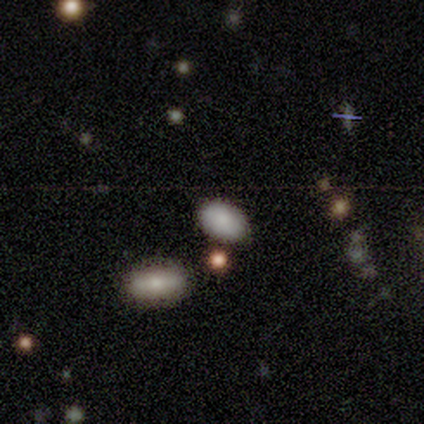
Morphology: type=smooth (100%); roundness=in between (100%); merging=none (80%).